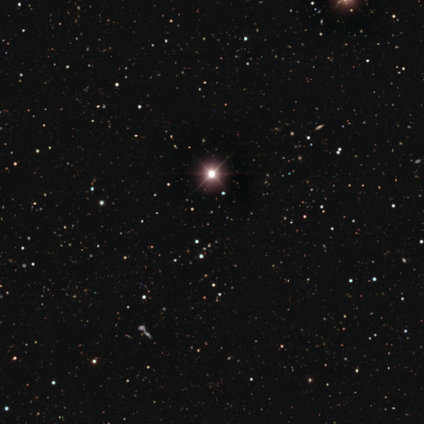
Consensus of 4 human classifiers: Morphology: type=star or artifact (100%).